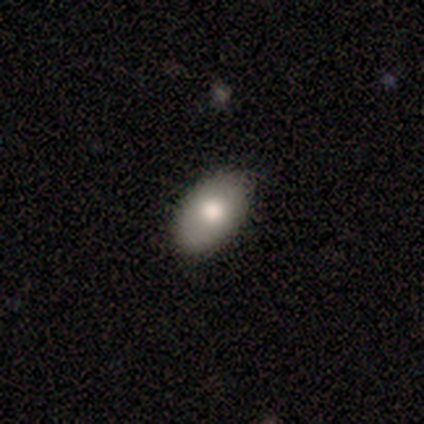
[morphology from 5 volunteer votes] A smooth galaxy with no disk features (80%) that is in between round and cigar-shaped (100%).

Vote fractions:
- Smooth or featured? smooth: 80% / star or artifact: 20% / featured or disk: 0%
- How rounded? in between: 100% / round: 0% / cigar-shaped: 0%
- Merging? none: 100% / minor disturbance: 0% / major disturbance: 0% / merger: 0%